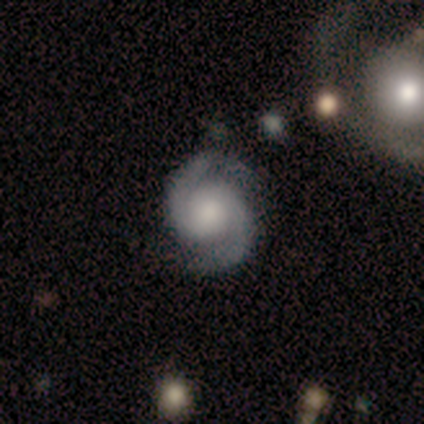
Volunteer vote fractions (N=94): Q: Smooth or featured?
A: featured or disk (93%); runner-up: star or artifact (6%)
Q: Edge-on disk?
A: no (97%); runner-up: yes (3%)
Q: Bar?
A: no (79%); runner-up: weak (17%)
Q: Spiral arms?
A: yes (96%); runner-up: no (4%)
Q: Spiral winding?
A: medium (49%); runner-up: tight (43%)
Q: Spiral arm count?
A: 2 (99%); runner-up: can't tell (1%)
Q: Bulge size?
A: large (33%); runner-up: moderate (24%)
Q: Merging?
A: none (80%); runner-up: minor disturbance (17%)